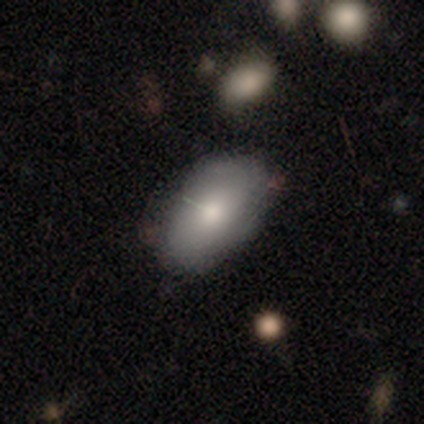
This appears to be a smooth galaxy with no disk features (84%) that is in between round and cigar-shaped (92%). Merging: none (72%).